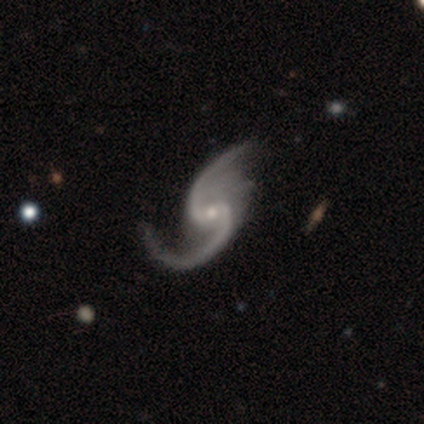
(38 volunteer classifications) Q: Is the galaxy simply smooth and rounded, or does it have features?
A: featured or disk — 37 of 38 (97%).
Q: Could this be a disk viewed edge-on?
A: no — 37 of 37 (100%).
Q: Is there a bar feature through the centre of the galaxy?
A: weak — 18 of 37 (49%).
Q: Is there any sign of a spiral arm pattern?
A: yes — 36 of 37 (97%).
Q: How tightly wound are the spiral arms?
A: loose — 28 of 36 (78%).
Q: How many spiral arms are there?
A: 2 — 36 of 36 (100%).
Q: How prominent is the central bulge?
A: small — 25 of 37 (68%).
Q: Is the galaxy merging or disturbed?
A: none — 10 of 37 (27%).